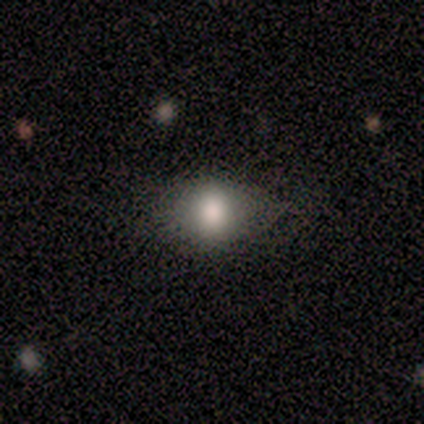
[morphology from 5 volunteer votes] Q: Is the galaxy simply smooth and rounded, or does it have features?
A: smooth — 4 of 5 (80%).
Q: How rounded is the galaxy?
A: round — 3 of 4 (75%).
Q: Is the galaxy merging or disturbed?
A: none — 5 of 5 (100%).